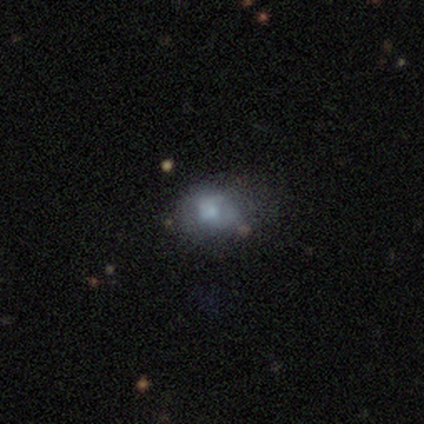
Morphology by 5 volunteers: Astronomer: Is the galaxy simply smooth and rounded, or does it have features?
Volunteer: featured or disk — 40%, tied with star or artifact at 40%.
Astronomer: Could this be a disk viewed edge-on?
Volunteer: no — 100%.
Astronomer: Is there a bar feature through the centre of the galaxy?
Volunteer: no — 100%.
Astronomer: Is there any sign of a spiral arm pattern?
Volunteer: no — 100%.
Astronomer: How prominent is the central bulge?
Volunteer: large — 50%, tied with small at 50%.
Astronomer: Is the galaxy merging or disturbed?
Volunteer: minor disturbance — 67%.